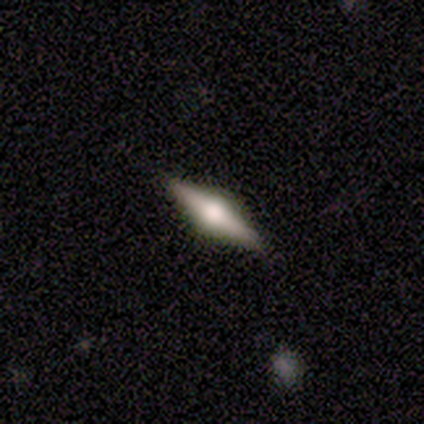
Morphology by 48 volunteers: Smooth or featured? featured or disk (85%)
Edge-on disk? yes (98%)
Edge-on bulge? rounded (92%)
Merging? none (93%)